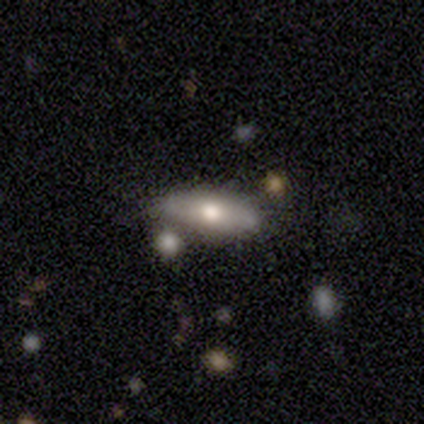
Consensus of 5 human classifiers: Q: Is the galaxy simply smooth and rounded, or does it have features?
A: smooth — 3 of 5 (60%).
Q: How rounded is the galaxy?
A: cigar-shaped — 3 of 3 (100%).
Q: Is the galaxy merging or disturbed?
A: none — 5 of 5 (100%).